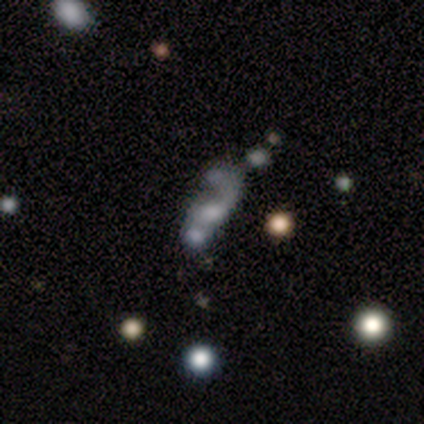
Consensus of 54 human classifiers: Smooth or featured? featured or disk (48%)
Edge-on disk? no (100%)
Bar? no (92%)
Spiral arms? no (58%)
Bulge size? large (31%, tied with none)
Merging? merger (46%)